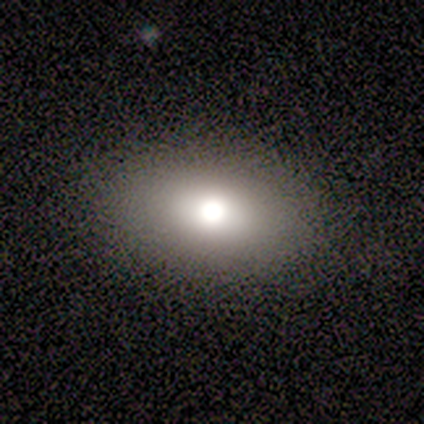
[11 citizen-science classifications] Overall: smooth (64%). How rounded: in between (71%). Merging: none (78%).